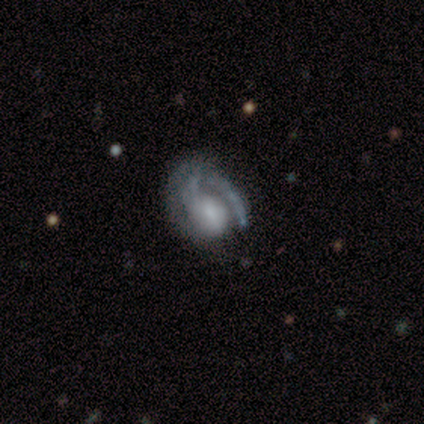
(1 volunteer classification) smooth_or_featured: smooth (p=1.00)
how_rounded: in between (p=1.00)
merging: none (p=1.00)